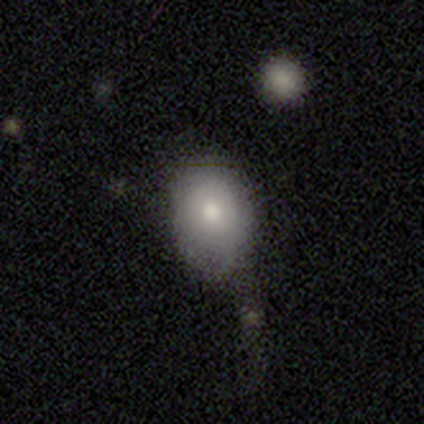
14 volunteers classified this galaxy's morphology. type=smooth (71%); roundness=in between (80%); merging=none (42%, tied with minor disturbance).